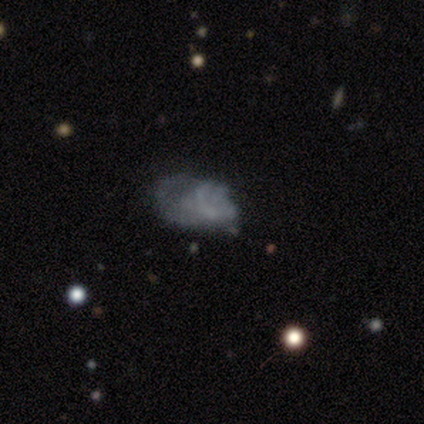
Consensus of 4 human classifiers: A smooth galaxy with no disk features (50%, tied with featured or disk) that is in between round and cigar-shaped (50%, tied with cigar-shaped). Merging: minor disturbance (50%).